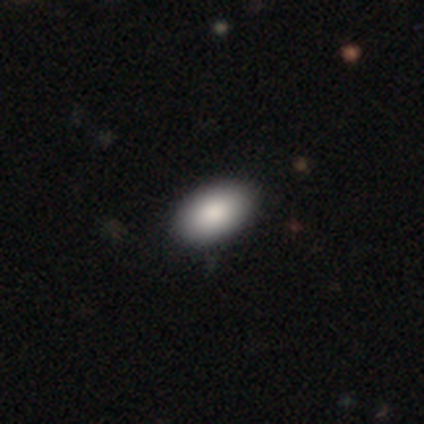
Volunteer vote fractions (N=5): smooth_or_featured: smooth (p=0.80) [alt: star or artifact p=0.20]
how_rounded: in between (p=1.00)
merging: none (p=0.50) [tied with: minor disturbance p=0.50]